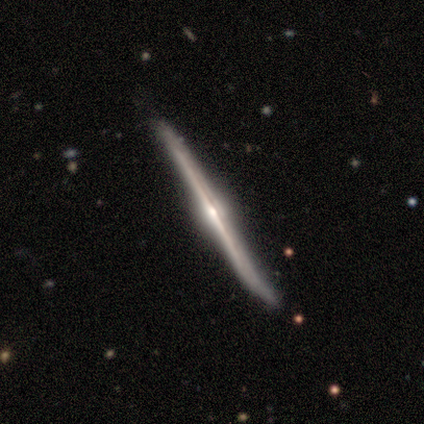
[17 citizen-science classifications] Smooth or featured?
  - featured or disk: 88% *
  - smooth: 6%
  - star or artifact: 6%
Edge-on disk?
  - yes: 100% *
  - no: 0%
Edge-on bulge?
  - rounded: 100% *
  - boxy: 0%
  - none: 0%
Merging?
  - none: 62% *
  - minor disturbance: 38%
  - major disturbance: 0%
  - merger: 0%